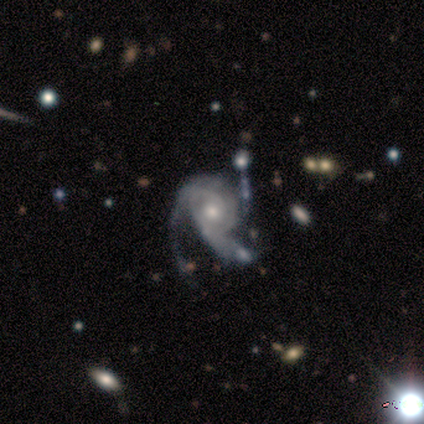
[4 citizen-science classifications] Overall: featured or disk (100%). Edge-on disk: no (100%). Bar: weak (50%, tied with no). Spiral arms: yes (100%). Spiral arm count: 2 (50%; 1 25%). Spiral winding: tight (75%). Bulge size: moderate (100%). Merging: none (50%; minor disturbance 25%).